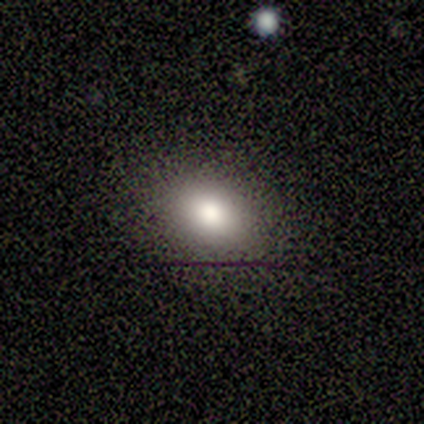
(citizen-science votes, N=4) Smooth or featured? smooth (100%)
How rounded? round (50%, tied with in between)
Merging? none (100%)